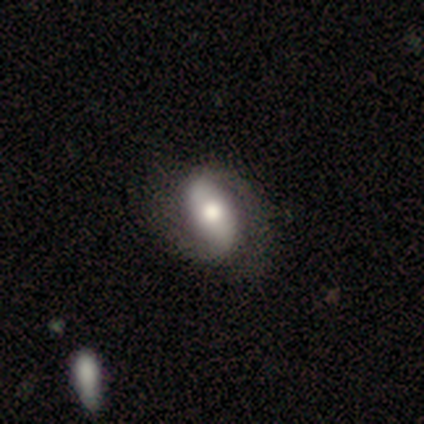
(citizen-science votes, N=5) smooth 60%, featured or disk 40%, star or artifact 0%. Down the decision tree: how rounded — in between (100%); merging — none (80%).